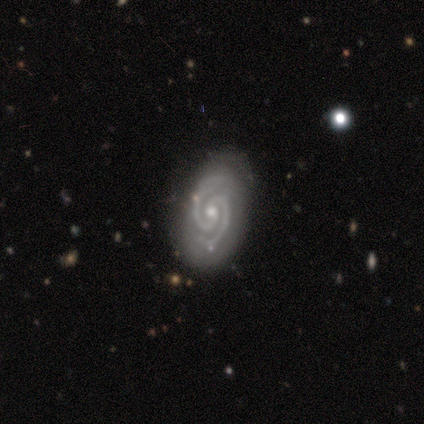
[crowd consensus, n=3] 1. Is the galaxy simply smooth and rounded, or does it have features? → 100% featured or disk, 0% smooth, 0% star or artifact.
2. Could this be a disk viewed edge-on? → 100% no, 0% yes.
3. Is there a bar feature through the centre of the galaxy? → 67% weak, 33% no, 0% strong.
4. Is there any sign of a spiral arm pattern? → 100% yes, 0% no.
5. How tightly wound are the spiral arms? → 67% tight, 33% medium, 0% loose.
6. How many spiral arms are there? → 100% 2, 0% 1, 0% 3, 0% 4, 0% more than 4, 0% can't tell.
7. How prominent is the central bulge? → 67% small, 33% moderate, 0% dominant, 0% large, 0% none.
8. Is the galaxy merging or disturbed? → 100% none, 0% minor disturbance, 0% major disturbance, 0% merger.